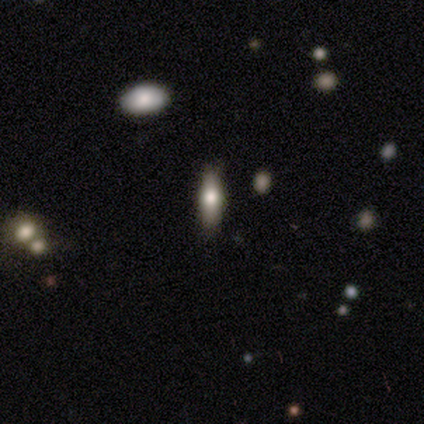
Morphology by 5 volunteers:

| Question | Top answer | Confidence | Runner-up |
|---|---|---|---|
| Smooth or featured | featured or disk | 80% | smooth (20%) |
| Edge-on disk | yes | 100% | — |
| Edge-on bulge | rounded | 100% | — |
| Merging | none | 80% | merger (20%) |